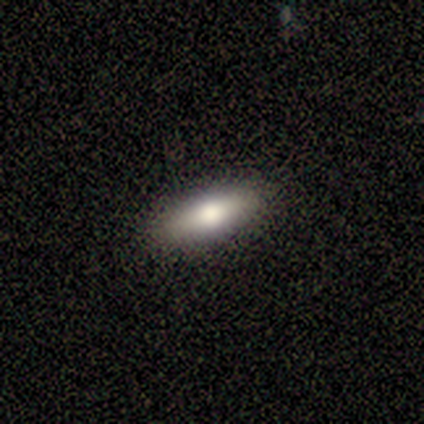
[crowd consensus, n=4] A smooth galaxy with no disk features (75%) that is in between round and cigar-shaped (100%).

Vote fractions:
- Smooth or featured? smooth: 75% / featured or disk: 25% / star or artifact: 0%
- How rounded? in between: 100% / round: 0% / cigar-shaped: 0%
- Merging? none: 75% / major disturbance: 25% / minor disturbance: 0% / merger: 0%